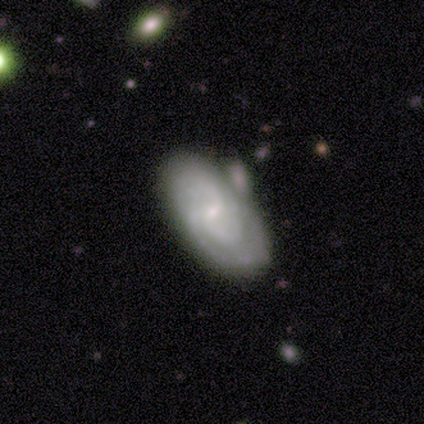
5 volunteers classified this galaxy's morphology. This appears to be a featured or disk galaxy (80%) with no bar (67%), 2 (67%) medium (67%) spiral arms (100%) and a small central bulge (100%). Merging: none (40%, tied with minor disturbance).